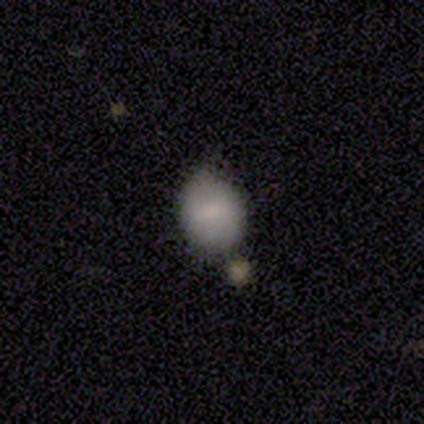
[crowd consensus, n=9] Smooth or featured? smooth (89%)
How rounded? in between (62%)
Merging? none (56%)